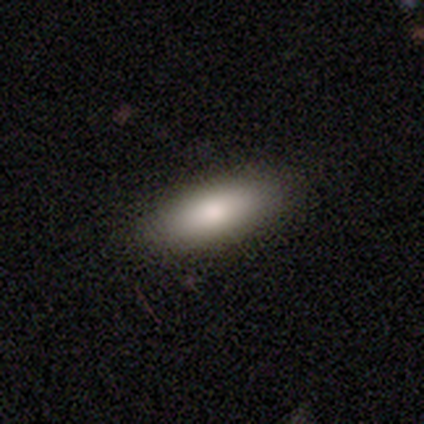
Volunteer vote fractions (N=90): Smooth or featured: smooth — 83% (featured or disk — 10%)
How rounded: in between — 64% (cigar-shaped — 35%)
Merging: none — 82% (minor disturbance — 13%)